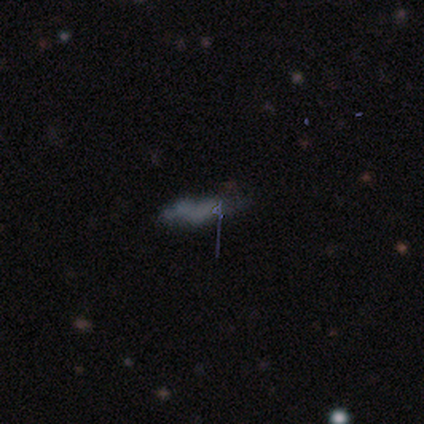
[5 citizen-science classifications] Overall: featured or disk (80%). Edge-on disk: no (100%). Bar: no (100%). Spiral arms: no (75%). Bulge size: none (75%). Merging: major disturbance (60%; none 20%).